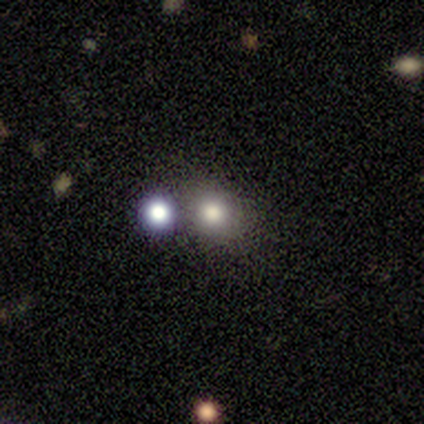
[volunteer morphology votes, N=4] Volunteers were most divided on "smooth or featured": smooth: 50%, featured or disk: 25%, star or artifact: 25%. More confident: how rounded — round (100%); merging — none (67%).